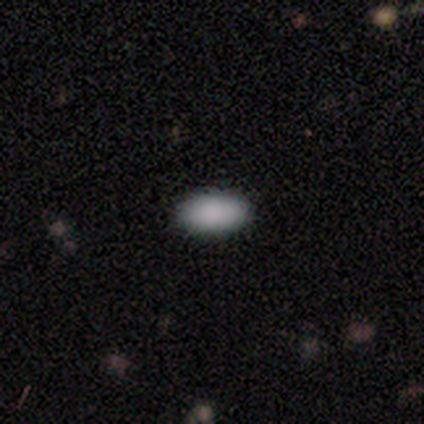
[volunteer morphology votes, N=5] A smooth galaxy with no disk features (80%) that is in between round and cigar-shaped (100%).

Vote fractions:
- Smooth or featured? smooth: 80% / star or artifact: 20% / featured or disk: 0%
- How rounded? in between: 100% / round: 0% / cigar-shaped: 0%
- Merging? none: 100% / minor disturbance: 0% / major disturbance: 0% / merger: 0%